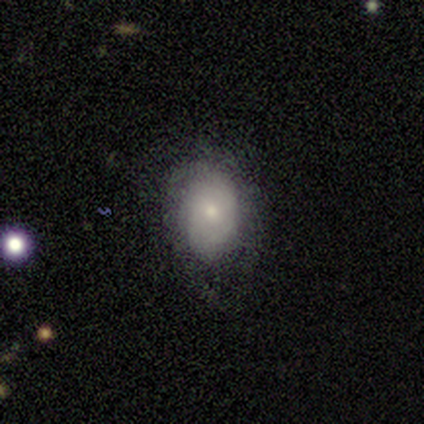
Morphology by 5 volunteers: smooth 80%, featured or disk 20%, star or artifact 0%. Down the decision tree: how rounded — in between (75%); merging — none (100%).